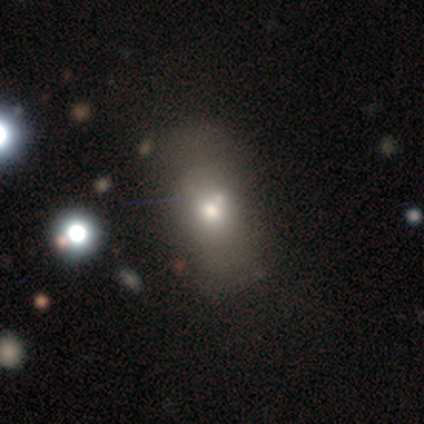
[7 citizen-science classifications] Smooth or featured?
  - smooth: 71% *
  - featured or disk: 14%
  - star or artifact: 14%
How rounded?
  - in between: 60% *
  - round: 20%
  - cigar-shaped: 20%
Merging?
  - none: 50% * (tied)
  - minor disturbance: 50% * (tied)
  - major disturbance: 0%
  - merger: 0%